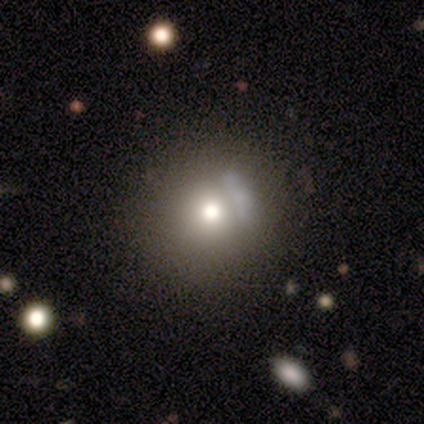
This is possibly a smooth galaxy (59%). How rounded: clearly round (100%). Merging: possibly none (50%).